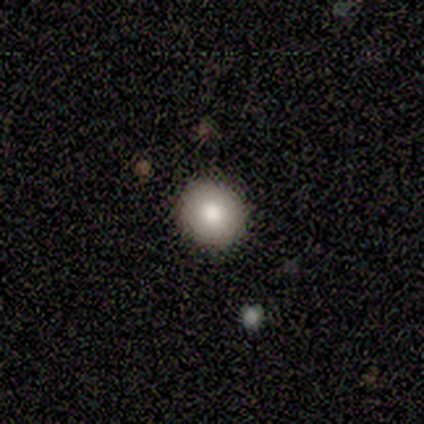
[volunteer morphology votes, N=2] smooth 100%, featured or disk 0%, star or artifact 0%. Down the decision tree: how rounded — round (50%, tied with in between); merging — none (50%, tied with minor disturbance).